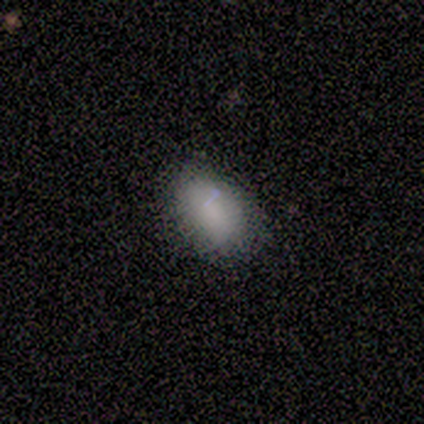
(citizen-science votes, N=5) Q: Smooth or featured?
A: smooth (80%); runner-up: featured or disk (20%)
Q: How rounded?
A: in between (100%)
Q: Merging?
A: none (80%); runner-up: minor disturbance (20%)